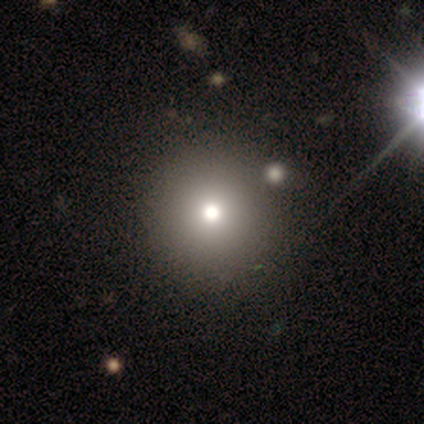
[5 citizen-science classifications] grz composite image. It shows a smooth galaxy with no disk features (60%) that is round (67%). Merging: none (100%).